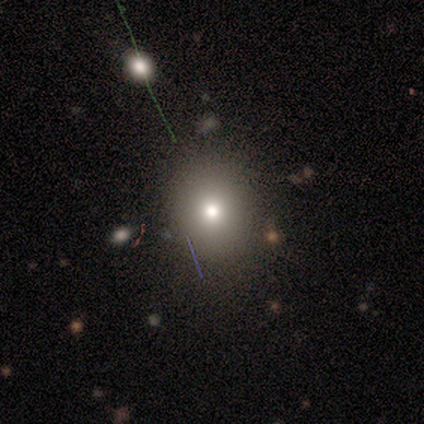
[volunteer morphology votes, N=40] Smooth or featured: smooth — 85% (star or artifact — 12%)
How rounded: round — 59% (in between — 32%)
Merging: none — 86% (minor disturbance — 11%)